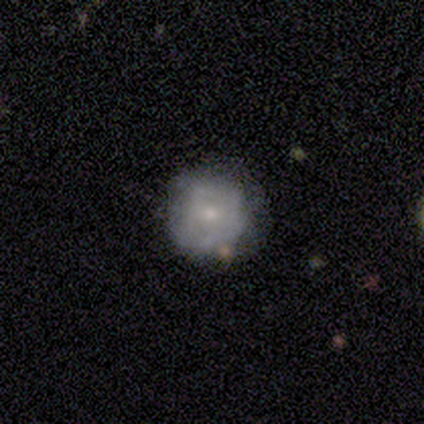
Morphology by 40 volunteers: smooth-or-featured: featured or disk: 50% | smooth: 45% | star or artifact: 5%
  disk-edge-on: no: 100% | yes: 0%
    bar: no: 90% | weak: 10% | strong: 0%
    has-spiral-arms: no: 60% | yes: 40%
    bulge-size: small: 65% | moderate: 35% | dominant: 0% | large: 0% | none: 0%
  merging: none: 50% | minor disturbance: 26% | major disturbance: 18% | merger: 5%